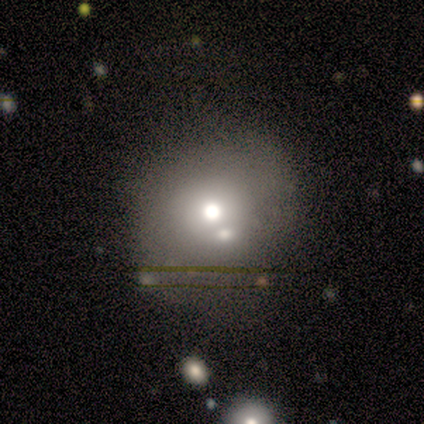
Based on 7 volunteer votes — Overall: smooth (71%). How rounded: round (80%). Merging: none (67%; merger 33%).